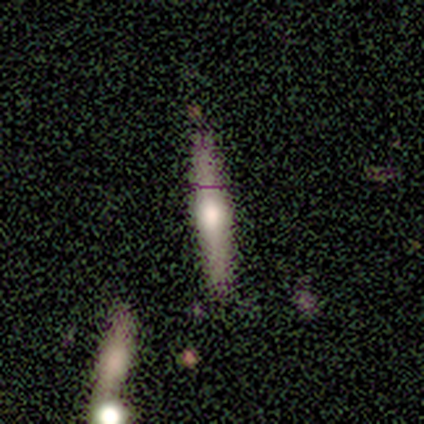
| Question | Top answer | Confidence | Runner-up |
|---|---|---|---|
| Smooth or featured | featured or disk | 60% | smooth (40%) |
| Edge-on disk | yes | 100% | — |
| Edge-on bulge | rounded | 100% | — |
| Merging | none | 60% | minor disturbance (20%) |